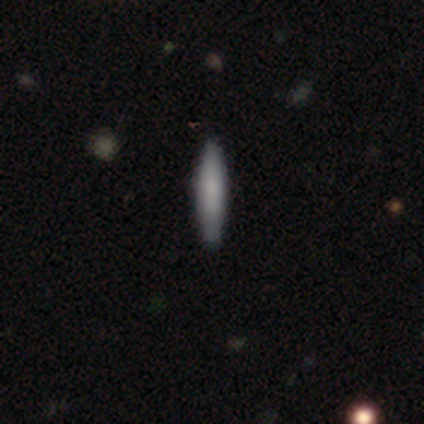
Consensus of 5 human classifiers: Smooth or featured? smooth (60%)
How rounded? cigar-shaped (100%)
Merging? none (100%)